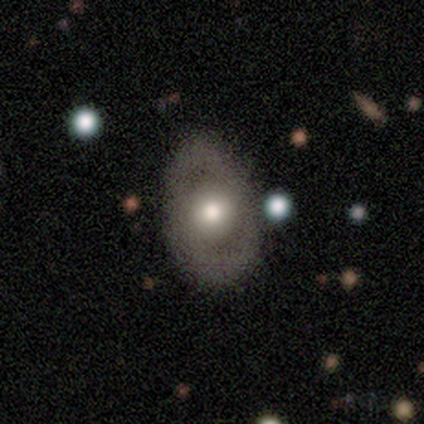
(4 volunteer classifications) Volunteers were most divided on "merging": none: 50%, minor disturbance: 25%, major disturbance: 25%, merger: 0%. More confident: smooth or featured — smooth (75%); how rounded — in between (67%).